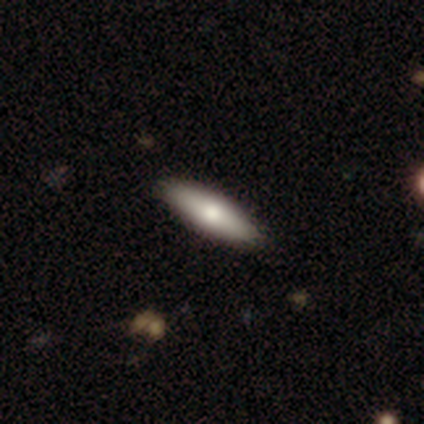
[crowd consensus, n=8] smooth-or-featured: smooth: 88% | featured or disk: 12% | star or artifact: 0%
  how-rounded: cigar-shaped: 86% | in between: 14% | round: 0%
  merging: none: 100% | minor disturbance: 0% | major disturbance: 0% | merger: 0%